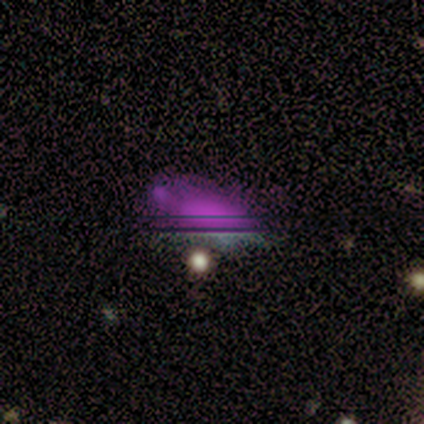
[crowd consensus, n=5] A star or artifact, not a galaxy (60%).